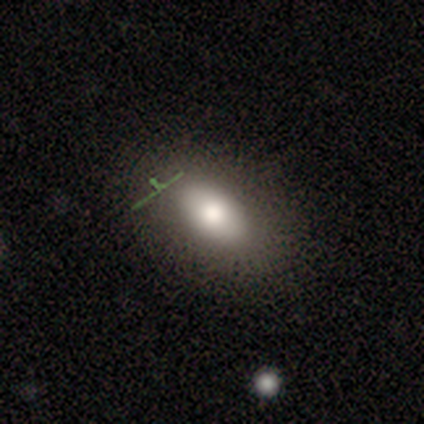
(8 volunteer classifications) A smooth galaxy with no disk features (88%) that is in between round and cigar-shaped (86%).

Vote fractions:
- Smooth or featured? smooth: 88% / star or artifact: 12% / featured or disk: 0%
- How rounded? in between: 86% / round: 14% / cigar-shaped: 0%
- Merging? none: 71% / minor disturbance: 29% / major disturbance: 0% / merger: 0%